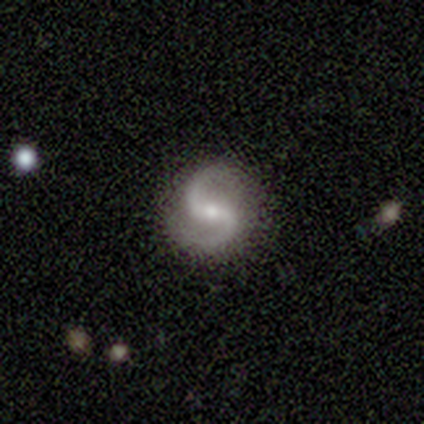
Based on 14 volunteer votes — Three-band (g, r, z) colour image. It shows a featured or disk galaxy (93%) with a weak bar (62%), 2 (100%) medium (54%) spiral arms (100%) and a moderate central bulge (62%). Merging: none (92%).